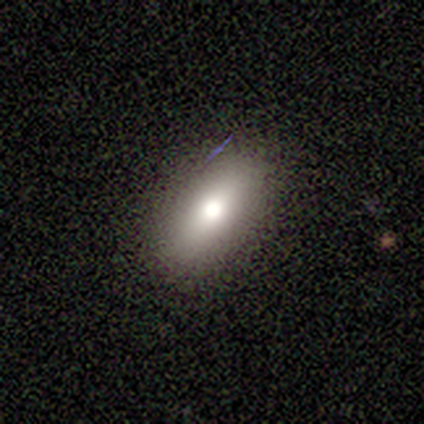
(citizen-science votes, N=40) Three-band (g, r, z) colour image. It shows a smooth galaxy with no disk features (72%) that is in between round and cigar-shaped (69%). Merging: none (88%).